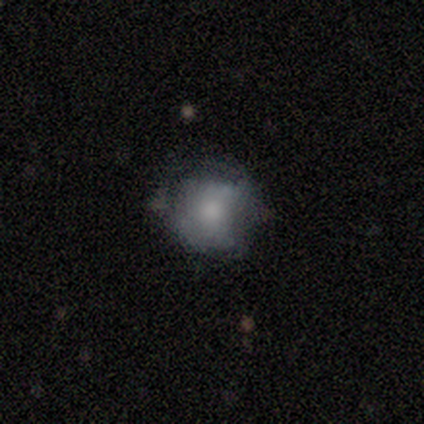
This is likely a smooth galaxy (64%). How rounded: likely round (72%). Merging: possibly none (47%).